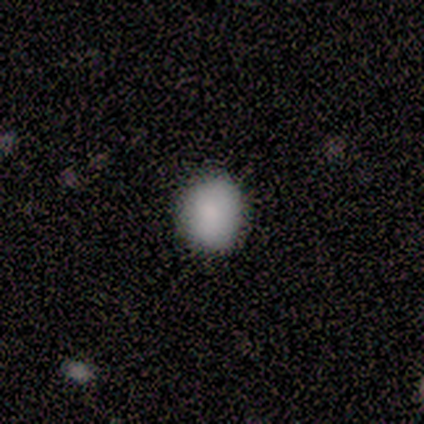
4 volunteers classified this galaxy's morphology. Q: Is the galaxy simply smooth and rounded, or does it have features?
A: smooth — 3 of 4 (75%).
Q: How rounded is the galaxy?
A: round — 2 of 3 (67%).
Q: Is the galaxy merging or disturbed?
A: none — 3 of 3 (100%).